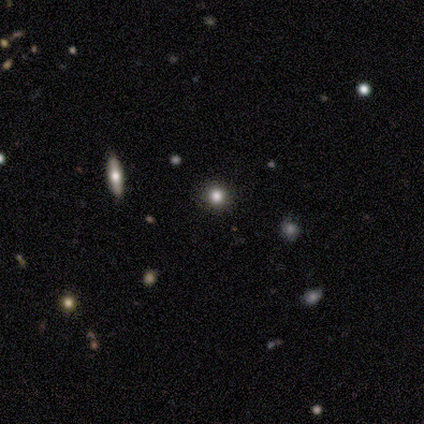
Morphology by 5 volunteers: smooth_or_featured: star or artifact (p=0.60) [alt: smooth p=0.40]